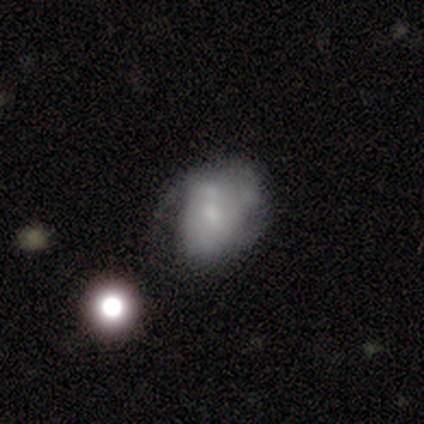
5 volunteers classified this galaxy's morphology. smooth_or_featured: featured or disk (p=0.60) [alt: smooth p=0.40]
disk_edge_on: no (p=1.00)
bar: no (p=1.00)
has_spiral_arms: yes (p=0.67) [alt: no p=0.33]
spiral_winding: tight (p=1.00)
spiral_arm_count: 1 (p=0.50) [tied with: can't tell p=0.50]
bulge_size: small (p=1.00)
merging: none (p=0.40) [tied with: minor disturbance p=0.40]